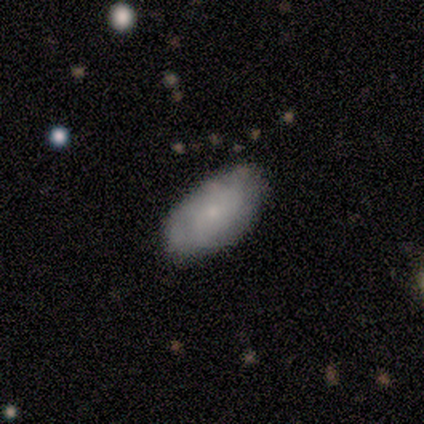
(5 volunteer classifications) Volunteers were most divided on "smooth or featured": featured or disk: 60%, smooth: 40%, star or artifact: 0%. More confident: edge-on disk — no (100%); bar — no (100%); spiral winding — medium (100%); spiral arm count — can't tell (100%); bulge size — small (100%); spiral arms — yes (67%); merging — none (60%).